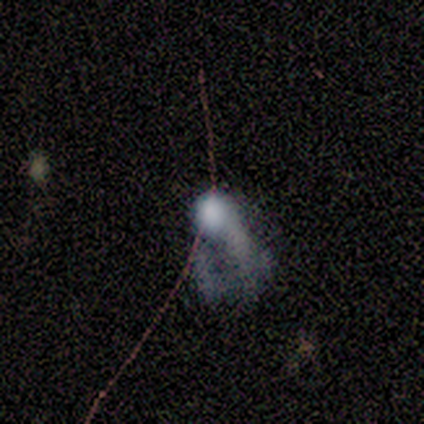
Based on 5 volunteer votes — Smooth or featured?
  - smooth: 40% * (tied)
  - featured or disk: 40% * (tied)
  - star or artifact: 20%
How rounded?
  - in between: 100% *
  - round: 0%
  - cigar-shaped: 0%
Merging?
  - major disturbance: 50% * (tied)
  - merger: 50% * (tied)
  - none: 0%
  - minor disturbance: 0%